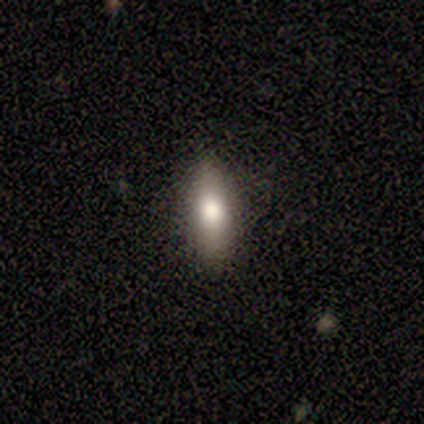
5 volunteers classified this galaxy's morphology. Smooth or featured? 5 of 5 (100%) said smooth. How rounded? 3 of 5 (60%) said cigar-shaped. Merging? 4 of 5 (80%) said none.